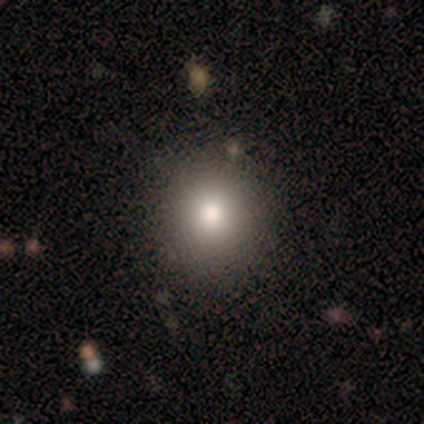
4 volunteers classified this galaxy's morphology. smooth-or-featured: smooth: 100% | featured or disk: 0% | star or artifact: 0%
  how-rounded: round: 75% | in between: 25% | cigar-shaped: 0%
  merging: none: 100% | minor disturbance: 0% | major disturbance: 0% | merger: 0%